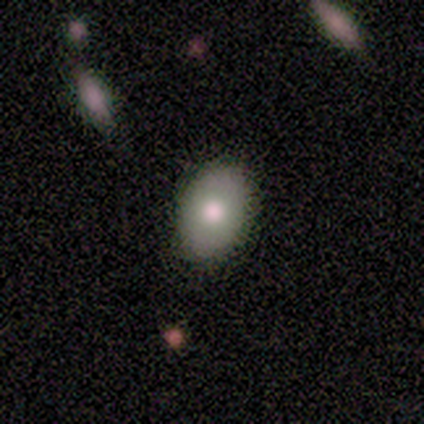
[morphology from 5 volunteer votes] smooth 100%, featured or disk 0%, star or artifact 0%. Down the decision tree: how rounded — in between (100%); merging — none (60%).